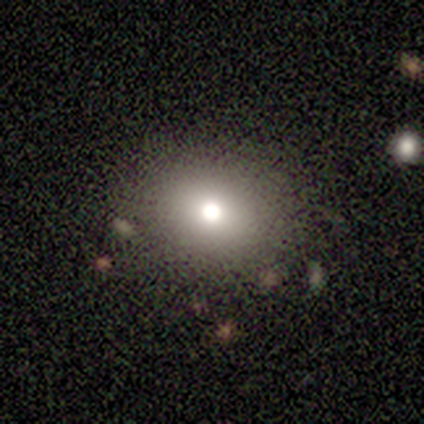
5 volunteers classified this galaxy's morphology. smooth_or_featured: smooth (p=0.80) [alt: star or artifact p=0.20]
how_rounded: round (p=0.50) [tied with: in between p=0.50]
merging: none (p=0.75) [alt: minor disturbance p=0.25]